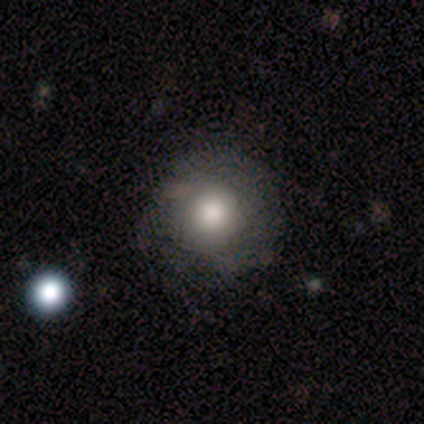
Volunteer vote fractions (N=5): smooth 80%, featured or disk 20%, star or artifact 0%. Down the decision tree: how rounded — round (100%); merging — none (80%).